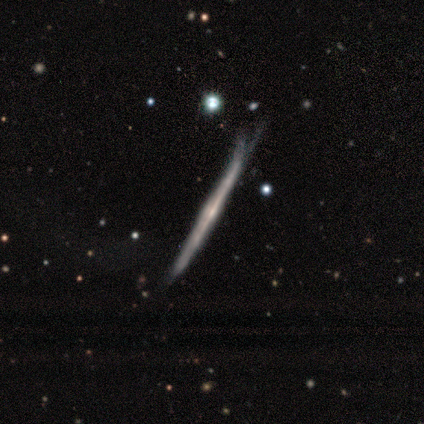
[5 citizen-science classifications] This appears to be a featured or disk galaxy (80%) viewed edge-on (100%) with no central bulge (50%, tied with rounded). Merging: minor disturbance (80%).